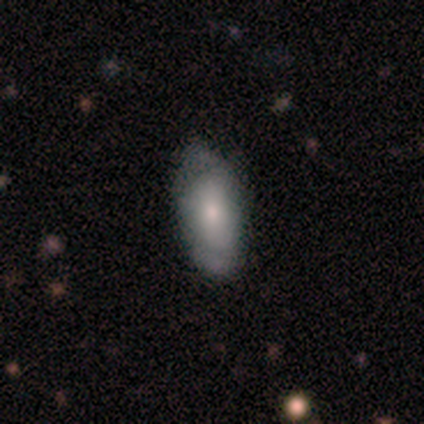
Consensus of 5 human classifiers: smooth-or-featured: smooth: 100% | featured or disk: 0% | star or artifact: 0%
  how-rounded: in between: 100% | round: 0% | cigar-shaped: 0%
  merging: none: 60% | minor disturbance: 20% | major disturbance: 20% | merger: 0%